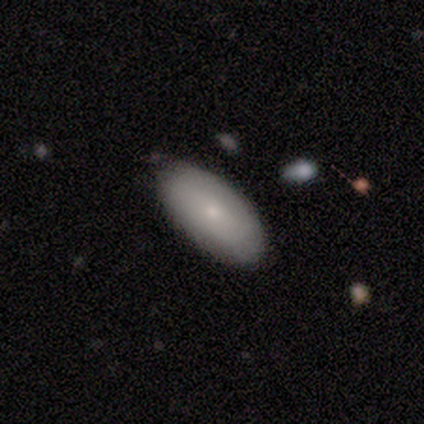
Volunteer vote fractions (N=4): Smooth or featured: smooth — 75% (featured or disk — 25%)
How rounded: in between — 100%
Merging: none — 100%